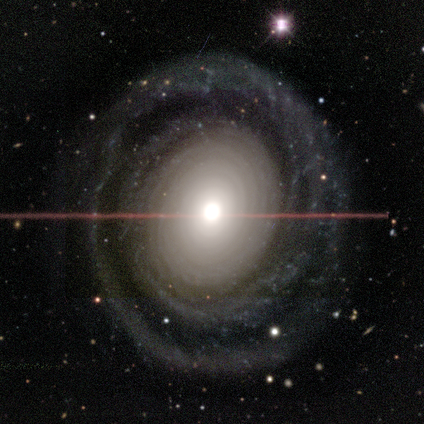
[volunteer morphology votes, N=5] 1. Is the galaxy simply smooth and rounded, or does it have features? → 100% featured or disk, 0% smooth, 0% star or artifact.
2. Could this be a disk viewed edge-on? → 100% no, 0% yes.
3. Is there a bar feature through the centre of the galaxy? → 80% no, 20% weak, 0% strong.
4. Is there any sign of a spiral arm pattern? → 80% yes, 20% no.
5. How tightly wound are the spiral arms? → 50% tight, 25% medium, 25% loose.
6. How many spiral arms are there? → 50% more than 4, 25% 1, 25% can't tell, 0% 2, 0% 3, 0% 4.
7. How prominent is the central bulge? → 40% large, 20% dominant, 20% moderate, 20% small, 0% none.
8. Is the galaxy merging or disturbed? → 100% none, 0% minor disturbance, 0% major disturbance, 0% merger.